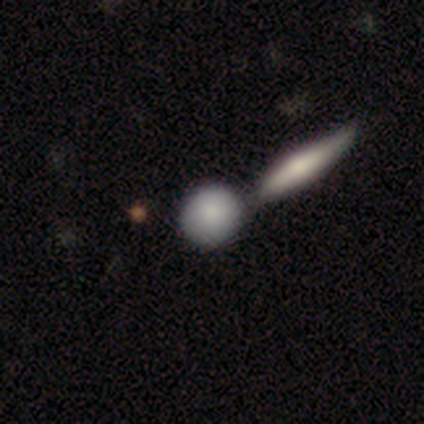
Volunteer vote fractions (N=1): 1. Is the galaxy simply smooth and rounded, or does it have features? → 100% smooth, 0% featured or disk, 0% star or artifact.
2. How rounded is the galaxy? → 100% round, 0% in between, 0% cigar-shaped.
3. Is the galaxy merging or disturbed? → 100% none, 0% minor disturbance, 0% major disturbance, 0% merger.